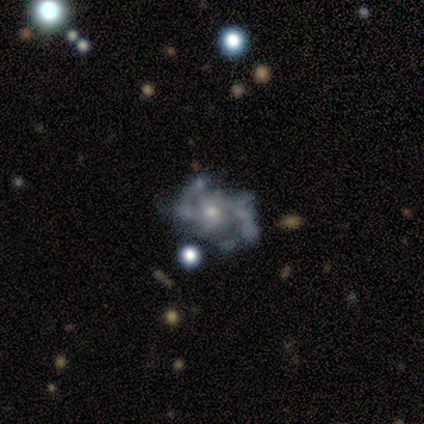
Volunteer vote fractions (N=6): This is clearly a featured or disk galaxy (83%). It is clearly not viewed edge-on (100%). Bar: likely weak (60%). Spiral arm pattern: clearly yes (80%). Spiral arm count: possibly 2 (50%). Spiral winding: likely medium (75%). Central bulge: clearly small (80%). Merging: possibly none (50%).